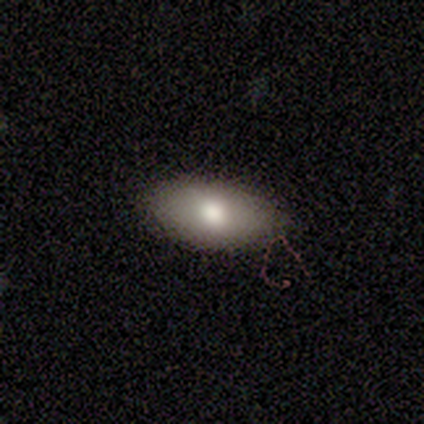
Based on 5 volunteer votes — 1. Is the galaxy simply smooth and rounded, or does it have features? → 100% smooth, 0% featured or disk, 0% star or artifact.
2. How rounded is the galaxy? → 100% in between, 0% round, 0% cigar-shaped.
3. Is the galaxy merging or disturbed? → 80% none, 20% minor disturbance, 0% major disturbance, 0% merger.